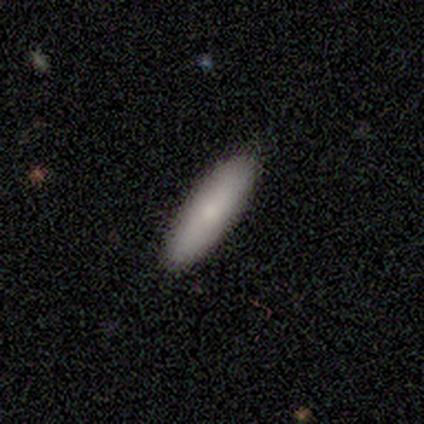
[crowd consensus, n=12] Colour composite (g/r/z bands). It shows a smooth galaxy with no disk features (83%) that is in between round and cigar-shaped (60%). Merging: none (91%).